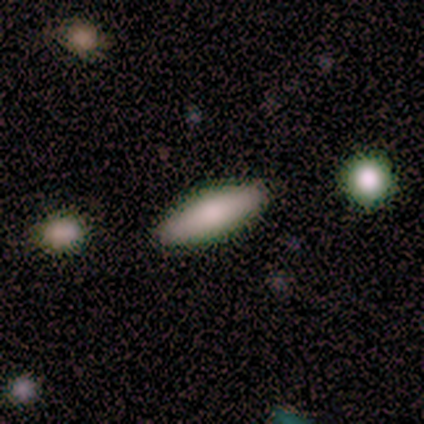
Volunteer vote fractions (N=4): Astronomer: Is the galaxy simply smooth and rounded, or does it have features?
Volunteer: smooth — 100%.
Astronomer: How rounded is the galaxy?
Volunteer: in between — 100%.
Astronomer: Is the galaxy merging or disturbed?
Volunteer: none — 100%.